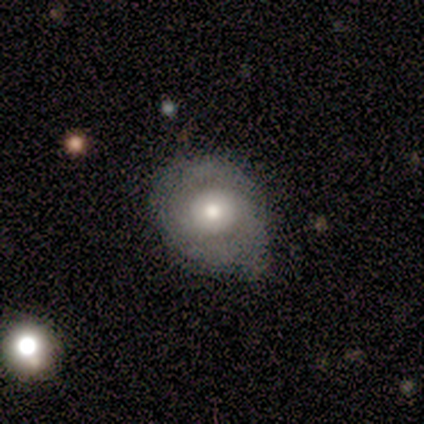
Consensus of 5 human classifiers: smooth-or-featured: smooth: 60% | featured or disk: 40% | star or artifact: 0%
  how-rounded: round: 100% | in between: 0% | cigar-shaped: 0%
  merging: none: 80% | minor disturbance: 20% | major disturbance: 0% | merger: 0%